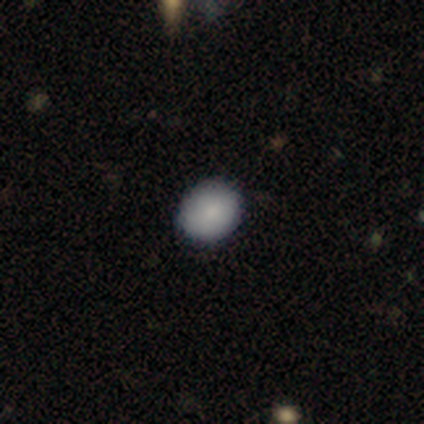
A smooth galaxy with no disk features (100%) that is round (80%).

Vote fractions:
- Smooth or featured? smooth: 100% / featured or disk: 0% / star or artifact: 0%
- How rounded? round: 80% / in between: 20% / cigar-shaped: 0%
- Merging? none: 100% / minor disturbance: 0% / major disturbance: 0% / merger: 0%